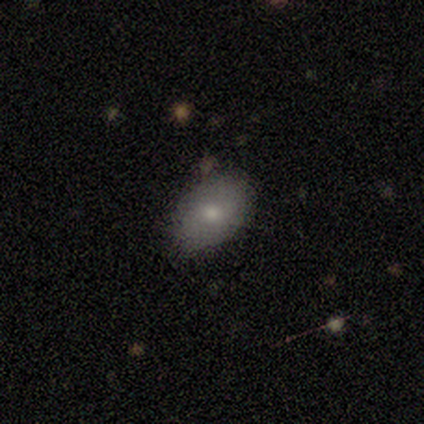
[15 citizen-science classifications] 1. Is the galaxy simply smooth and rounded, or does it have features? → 80% smooth, 20% featured or disk, 0% star or artifact.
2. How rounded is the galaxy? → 92% in between, 8% round, 0% cigar-shaped.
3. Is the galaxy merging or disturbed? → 67% none, 27% minor disturbance, 7% major disturbance, 0% merger.